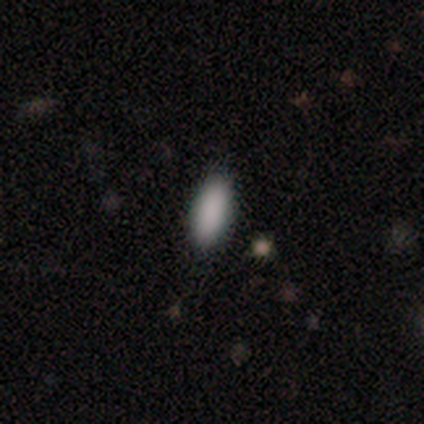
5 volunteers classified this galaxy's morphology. smooth 100%, featured or disk 0%, star or artifact 0%. Down the decision tree: how rounded — in between (100%); merging — none (100%).